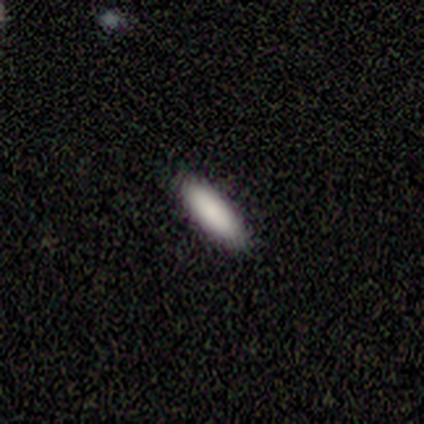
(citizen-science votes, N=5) smooth 80%, featured or disk 20%, star or artifact 0%. Down the decision tree: how rounded — in between (50%, tied with cigar-shaped); merging — none (100%).